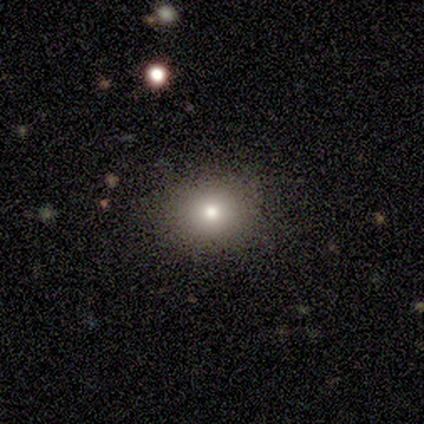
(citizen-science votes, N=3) A smooth galaxy with no disk features (100%) that is round (67%). Merging: none (100%).